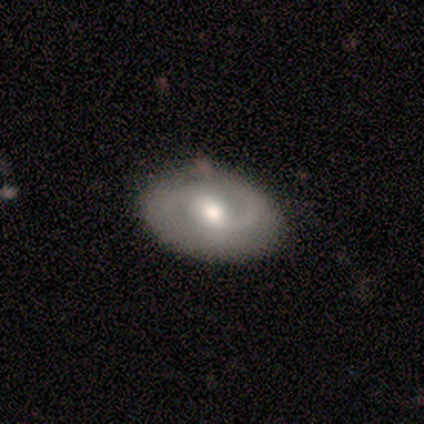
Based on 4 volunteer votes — smooth-or-featured: featured or disk: 100% | smooth: 0% | star or artifact: 0%
  disk-edge-on: no: 100% | yes: 0%
    bar: weak: 50% | strong: 25% | no: 25%
    has-spiral-arms: yes: 100% | no: 0%
      spiral-winding: medium: 50% | tight: 25% | loose: 25%
      spiral-arm-count: 2: 100% | 1: 0% | 3: 0% | 4: 0% | more than 4: 0% | can't tell: 0%
    bulge-size: moderate: 75% | small: 25% | dominant: 0% | large: 0% | none: 0%
  merging: none: 75% | minor disturbance: 25% | major disturbance: 0% | merger: 0%